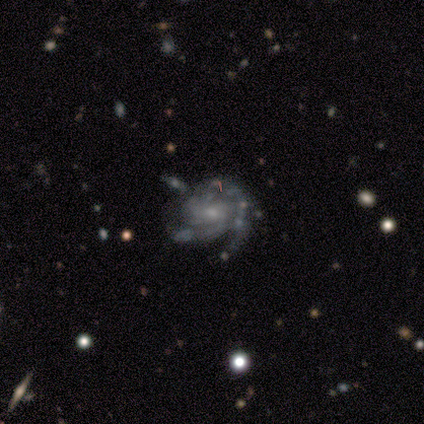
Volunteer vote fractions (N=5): Overall: featured or disk (80%). Edge-on disk: no (100%). Bar: no (75%). Spiral arms: yes (100%). Spiral arm count: 1 (25%, tied with 2, 3 and 4). Spiral winding: tight (50%, tied with medium). Bulge size: small (50%; moderate 25%). Merging: none (50%; minor disturbance 25%).